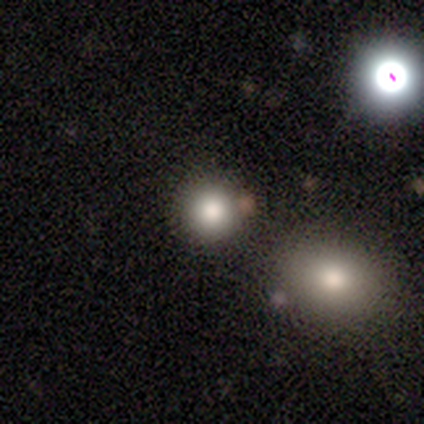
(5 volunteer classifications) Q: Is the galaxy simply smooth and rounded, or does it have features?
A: smooth — 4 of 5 (80%).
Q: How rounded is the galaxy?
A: round — 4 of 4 (100%).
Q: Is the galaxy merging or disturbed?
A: none — 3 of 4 (75%).